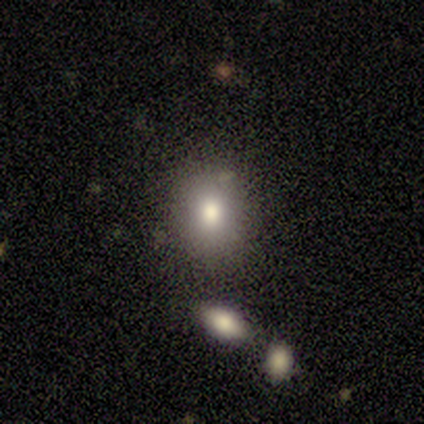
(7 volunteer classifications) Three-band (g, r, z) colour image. It shows a smooth galaxy with no disk features (71%) that is round (60%). Merging: none (83%).